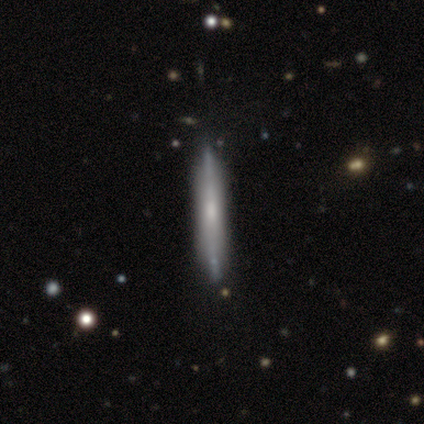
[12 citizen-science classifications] Smooth or featured: featured or disk — 67% (smooth — 25%)
Edge-on disk: yes — 100%
Edge-on bulge: none — 75% (boxy — 25%)
Merging: none — 73% (minor disturbance — 27%)